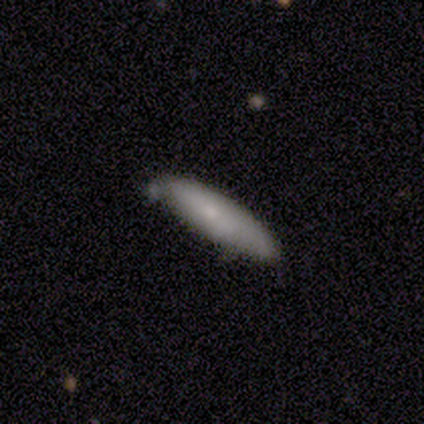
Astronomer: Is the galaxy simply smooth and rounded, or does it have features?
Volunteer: smooth — 80%.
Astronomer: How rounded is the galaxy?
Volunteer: in between — 75%.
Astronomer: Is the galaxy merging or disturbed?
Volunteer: none — 60%.